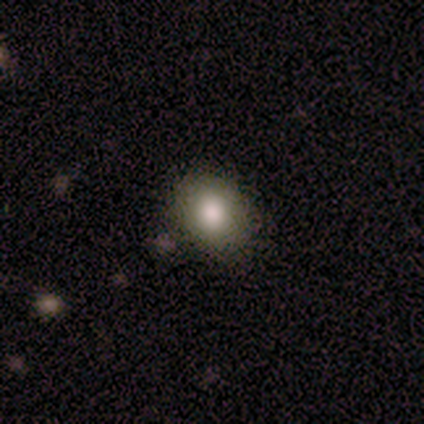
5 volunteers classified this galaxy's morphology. Overall: smooth (80%). How rounded: round (75%). Merging: none (100%).